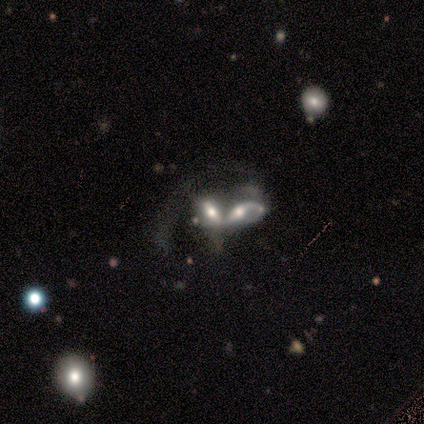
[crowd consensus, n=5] smooth-or-featured: featured or disk: 60% | smooth: 40% | star or artifact: 0%
  disk-edge-on: no: 100% | yes: 0%
    bar: strong: 33% (tied) | weak: 33% (tied) | no: 33% (tied)
    has-spiral-arms: yes: 100% | no: 0%
      spiral-winding: loose: 67% | medium: 33% | tight: 0%
      spiral-arm-count: 1: 33% (tied) | 2: 33% (tied) | can't tell: 33% (tied) | 3: 0% | 4: 0% | more than 4: 0%
    bulge-size: moderate: 33% (tied) | small: 33% (tied) | none: 33% (tied) | dominant: 0% | large: 0%
  merging: merger: 80% | major disturbance: 20% | none: 0% | minor disturbance: 0%